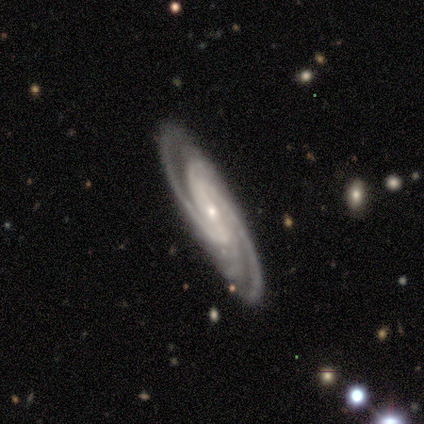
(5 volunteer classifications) Overall: featured or disk (100%). Edge-on disk: no (100%). Bar: strong (40%, tied with weak). Spiral arms: yes (100%). Spiral arm count: 2 (60%; 3 20%). Spiral winding: medium (60%; tight 40%). Bulge size: small (80%). Merging: none (60%; minor disturbance 40%).